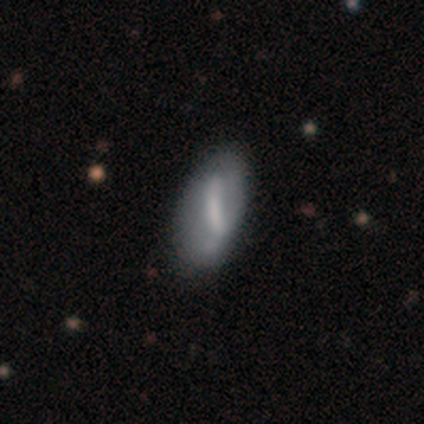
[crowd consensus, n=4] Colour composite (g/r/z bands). It shows a featured or disk galaxy (75%) with a weak bar (67%), 2 (50%, tied with 4) medium (50%, tied with loose) spiral arms (67%) and a dominant central bulge (33%, tied with small and none). Merging: none (67%).